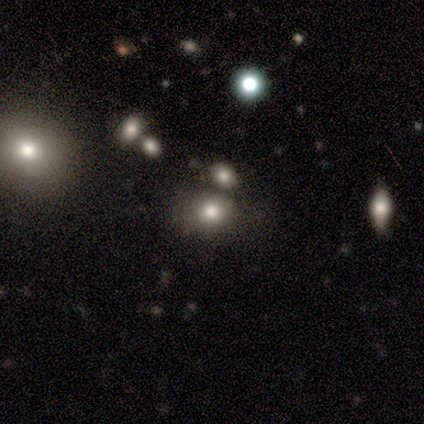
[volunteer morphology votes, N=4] smooth-or-featured: smooth: 75% | star or artifact: 25% | featured or disk: 0%
  how-rounded: round: 67% | in between: 33% | cigar-shaped: 0%
  merging: none: 100% | minor disturbance: 0% | major disturbance: 0% | merger: 0%